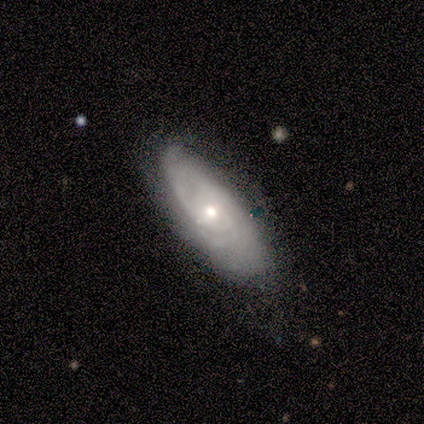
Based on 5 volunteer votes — smooth_or_featured: featured or disk (p=0.60) [alt: smooth p=0.20]
disk_edge_on: no (p=0.67) [alt: yes p=0.33]
bar: no (p=1.00)
has_spiral_arms: yes (p=1.00)
spiral_winding: tight (p=1.00)
spiral_arm_count: 3 (p=0.50) [tied with: can't tell p=0.50]
bulge_size: moderate (p=1.00)
merging: none (p=1.00)